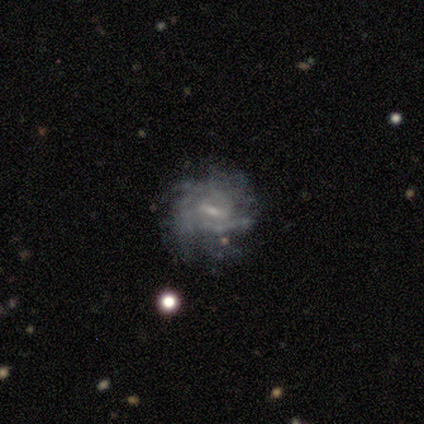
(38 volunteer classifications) Morphology: type=featured or disk (76%); edge-on=no (97%); bar=weak (68%); spiral arms=yes (86%); winding=tight (50%); arm count=can't tell (58%); bulge=small (57%); merging=none (71%).